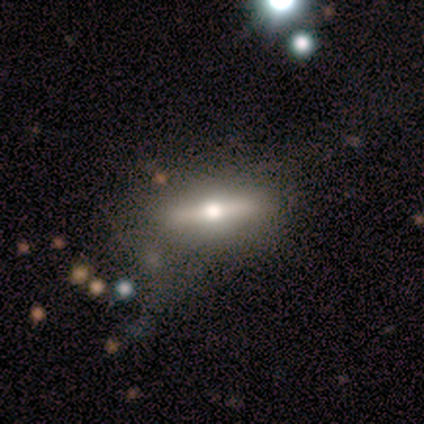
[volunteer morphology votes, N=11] This appears to be a featured or disk galaxy (82%) viewed edge-on (89%) with a rounded central bulge (100%). Merging: none (60%).